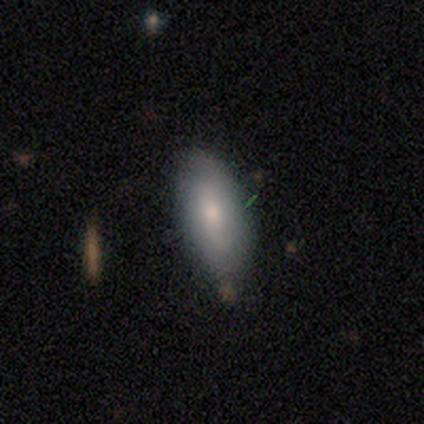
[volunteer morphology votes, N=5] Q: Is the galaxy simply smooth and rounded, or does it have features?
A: smooth — 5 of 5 (100%).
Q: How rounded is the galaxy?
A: in between — 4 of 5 (80%).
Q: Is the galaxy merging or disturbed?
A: none — 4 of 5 (80%).